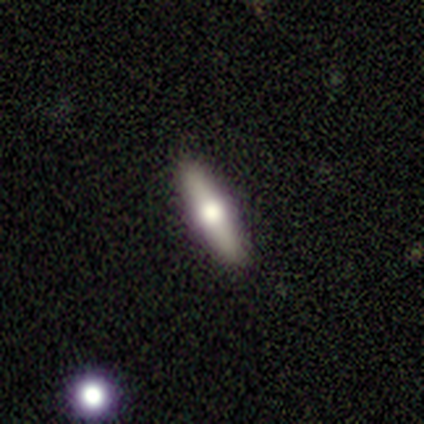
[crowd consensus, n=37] Overall: featured or disk (51%; smooth 43%). Edge-on disk: yes (89%). Edge-on bulge: rounded (94%). Merging: none (91%).